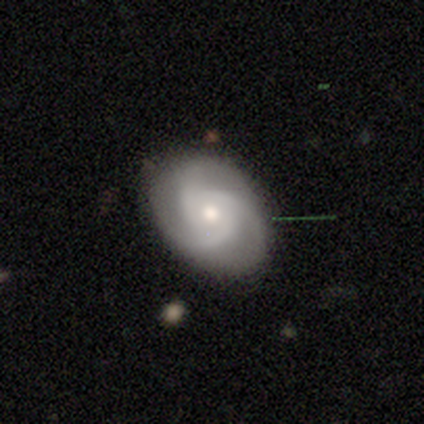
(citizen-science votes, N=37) Smooth or featured? featured or disk (76%)
Edge-on disk? no (96%)
Bar? no (85%)
Spiral arms? yes (100%)
Spiral winding? tight (41%, tied with medium)
Spiral arm count? 3 (93%)
Bulge size? moderate (59%)
Merging? none (88%)